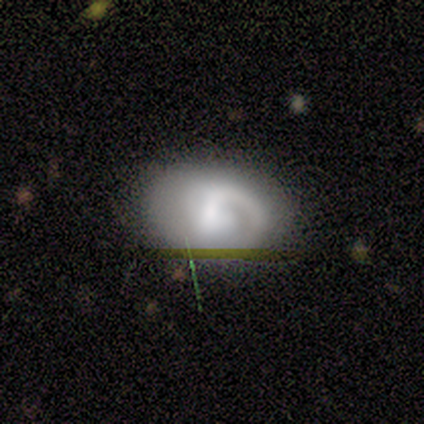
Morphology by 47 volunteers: smooth-or-featured: featured or disk: 64% | smooth: 28% | star or artifact: 9%
  disk-edge-on: no: 100% | yes: 0%
    bar: no: 47% | weak: 40% | strong: 13%
    has-spiral-arms: yes: 93% | no: 7%
      spiral-winding: tight: 57% | medium: 32% | loose: 11%
      spiral-arm-count: 1: 89% | can't tell: 7% | 2: 4% | 3: 0% | 4: 0% | more than 4: 0%
    bulge-size: moderate: 40% | small: 30% | large: 17% | none: 13% | dominant: 0%
  merging: none: 74% | minor disturbance: 14% | major disturbance: 12% | merger: 0%